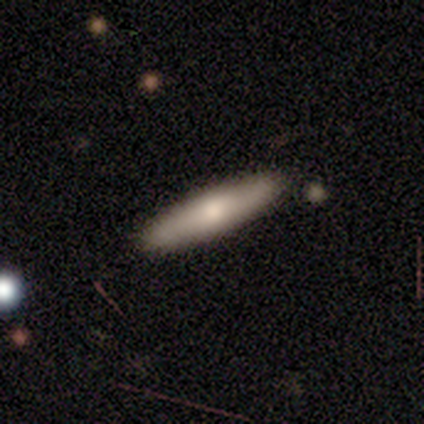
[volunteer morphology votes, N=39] This appears to be a smooth galaxy with no disk features (74%) that is cigar-shaped (72%). Merging: none (86%).